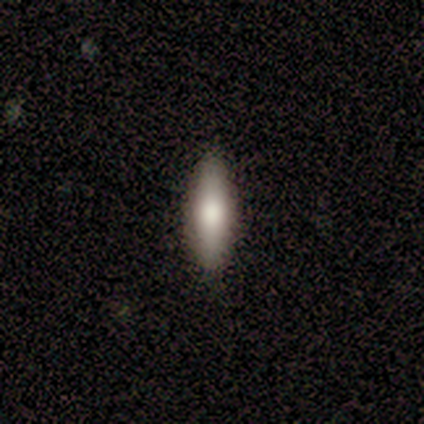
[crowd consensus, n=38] Smooth or featured? 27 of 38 (71%) said smooth. How rounded? 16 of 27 (59%) said cigar-shaped. Merging? 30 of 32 (94%) said none.